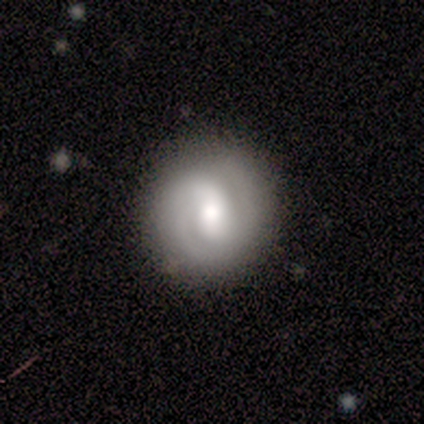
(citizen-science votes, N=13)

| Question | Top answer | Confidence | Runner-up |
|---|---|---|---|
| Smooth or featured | featured or disk | 85% | smooth (15%) |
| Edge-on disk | no | 100% | — |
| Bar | weak | 55% | no (36%) |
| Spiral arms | yes | 82% | no (18%) |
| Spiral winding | tight | 67% | medium (22%) |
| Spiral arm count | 2 | 67% | 1 (22%) |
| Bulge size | moderate | 82% | dominant (9%) |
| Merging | none | 92% | minor disturbance (8%) |